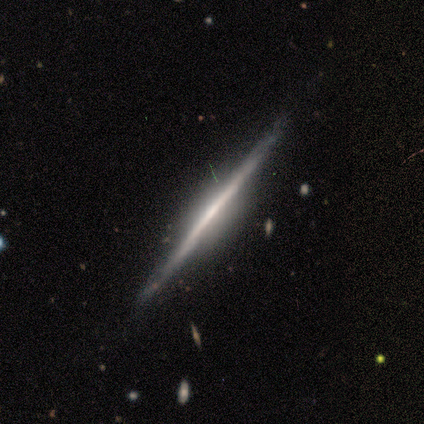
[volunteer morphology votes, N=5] Smooth or featured?
  - featured or disk: 80% *
  - smooth: 20%
  - star or artifact: 0%
Edge-on disk?
  - yes: 100% *
  - no: 0%
Edge-on bulge?
  - rounded: 50% *
  - boxy: 25%
  - none: 25%
Merging?
  - none: 80% *
  - minor disturbance: 20%
  - major disturbance: 0%
  - merger: 0%